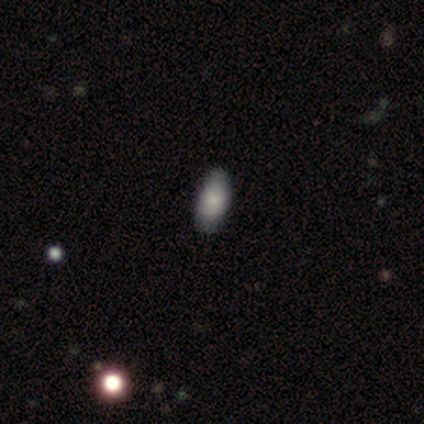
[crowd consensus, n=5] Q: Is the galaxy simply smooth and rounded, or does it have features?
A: smooth — 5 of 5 (100%).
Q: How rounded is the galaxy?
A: in between — 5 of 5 (100%).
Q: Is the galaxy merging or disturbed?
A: none — 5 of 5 (100%).